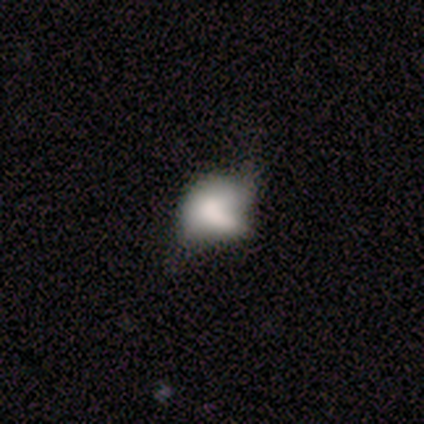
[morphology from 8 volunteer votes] type=featured or disk (50%); edge-on=no (100%); bar=no (100%); spiral arms=no (75%); bulge=none (75%); merging=none (29%, tied with major disturbance and merger).